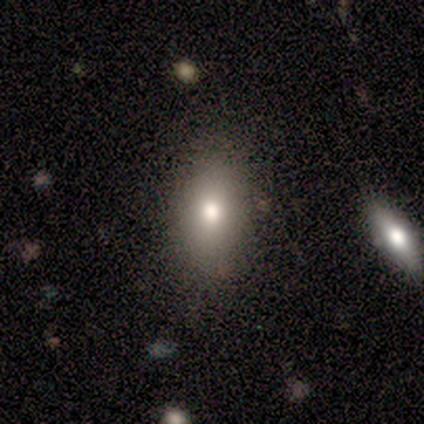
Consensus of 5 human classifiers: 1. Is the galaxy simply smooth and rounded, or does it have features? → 100% smooth, 0% featured or disk, 0% star or artifact.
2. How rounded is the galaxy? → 80% in between, 20% round, 0% cigar-shaped.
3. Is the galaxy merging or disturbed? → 100% none, 0% minor disturbance, 0% major disturbance, 0% merger.